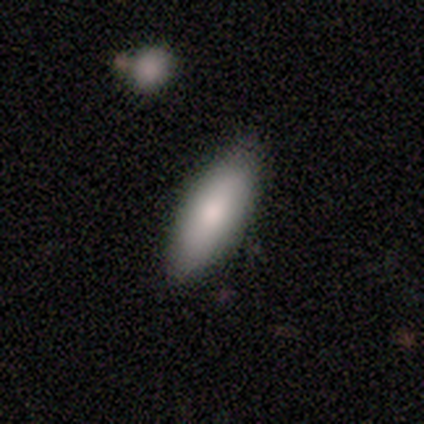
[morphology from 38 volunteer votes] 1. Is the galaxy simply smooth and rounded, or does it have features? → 87% smooth, 8% featured or disk, 5% star or artifact.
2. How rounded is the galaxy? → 67% in between, 30% cigar-shaped, 3% round.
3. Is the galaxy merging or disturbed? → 92% none, 3% minor disturbance, 3% major disturbance, 3% merger.